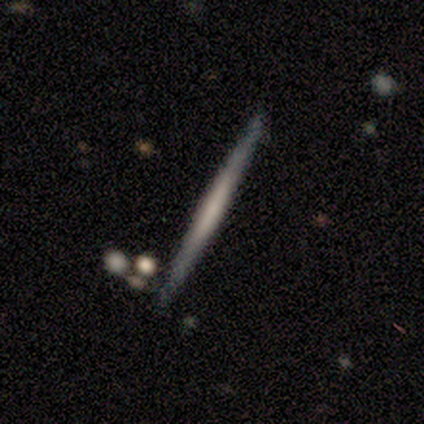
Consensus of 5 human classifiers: smooth-or-featured: featured or disk: 80% | smooth: 20% | star or artifact: 0%
  disk-edge-on: yes: 100% | no: 0%
    edge-on-bulge: none: 100% | boxy: 0% | rounded: 0%
  merging: none: 100% | minor disturbance: 0% | major disturbance: 0% | merger: 0%